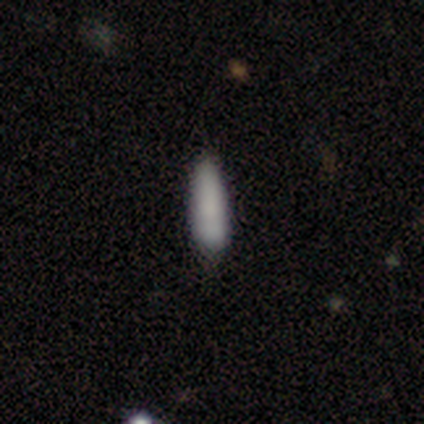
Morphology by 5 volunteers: Smooth or featured? smooth (60%)
How rounded? in between (67%)
Merging? none (75%)